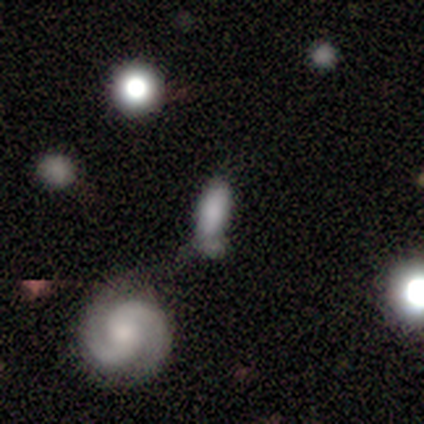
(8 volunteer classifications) Overall: smooth (62%; featured or disk 25%). How rounded: in between (60%; cigar-shaped 40%). Merging: none (43%; merger 29%).